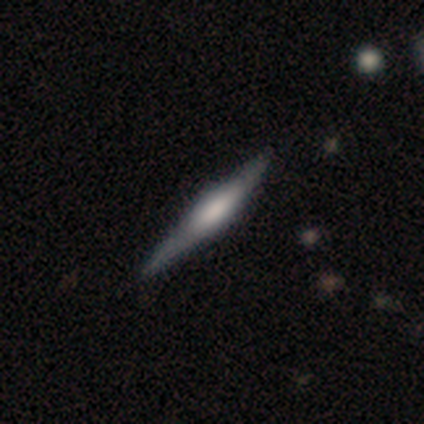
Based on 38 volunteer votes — This is possibly a featured or disk galaxy (55%). It is clearly viewed edge-on (100%). Edge-on bulge: possibly rounded (57%). Merging: likely none (74%).